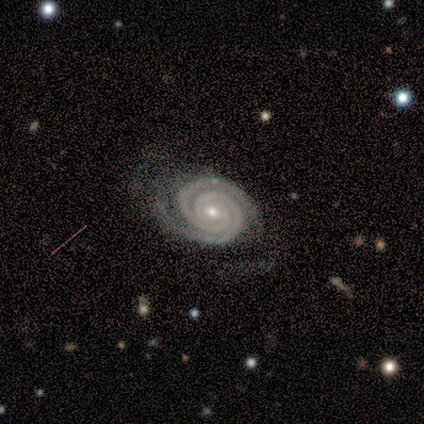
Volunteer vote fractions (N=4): Smooth or featured?
  - featured or disk: 100% *
  - smooth: 0%
  - star or artifact: 0%
Edge-on disk?
  - no: 100% *
  - yes: 0%
Bar?
  - no: 100% *
  - strong: 0%
  - weak: 0%
Spiral arms?
  - yes: 100% *
  - no: 0%
Spiral winding?
  - tight: 100% *
  - medium: 0%
  - loose: 0%
Spiral arm count?
  - 2: 100% *
  - 1: 0%
  - 3: 0%
  - 4: 0%
  - more than 4: 0%
  - can't tell: 0%
Bulge size?
  - small: 75% *
  - moderate: 25%
  - dominant: 0%
  - large: 0%
  - none: 0%
Merging?
  - none: 75% *
  - minor disturbance: 25%
  - major disturbance: 0%
  - merger: 0%